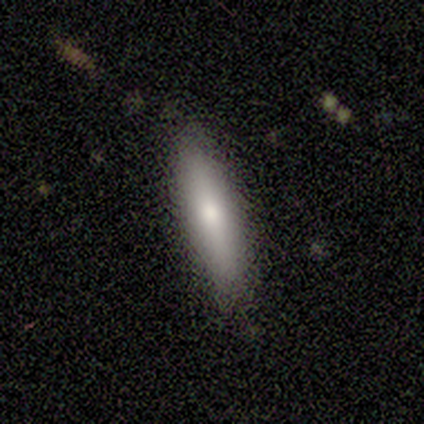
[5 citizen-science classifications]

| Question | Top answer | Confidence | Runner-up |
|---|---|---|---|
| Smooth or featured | smooth | 60% | featured or disk (40%) |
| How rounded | cigar-shaped | 67% | in between (33%) |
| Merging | none | 80% | minor disturbance (20%) |